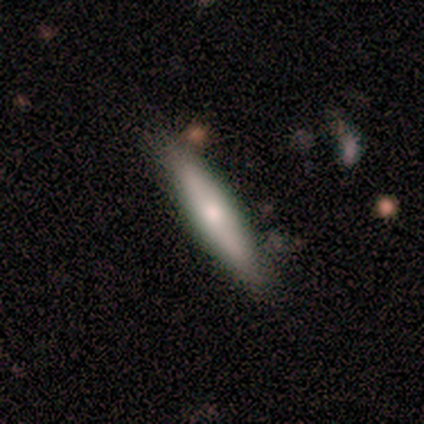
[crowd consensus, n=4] A smooth galaxy with no disk features (100%) that is in between round and cigar-shaped (50%, tied with cigar-shaped).

Vote fractions:
- Smooth or featured? smooth: 100% / featured or disk: 0% / star or artifact: 0%
- How rounded? in between: 50% (tied) / cigar-shaped: 50% (tied) / round: 0%
- Merging? none: 75% / major disturbance: 25% / minor disturbance: 0% / merger: 0%